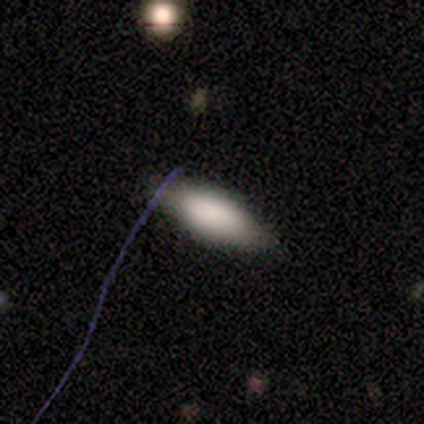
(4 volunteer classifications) Overall: smooth (100%). How rounded: in between (75%). Merging: none (100%).